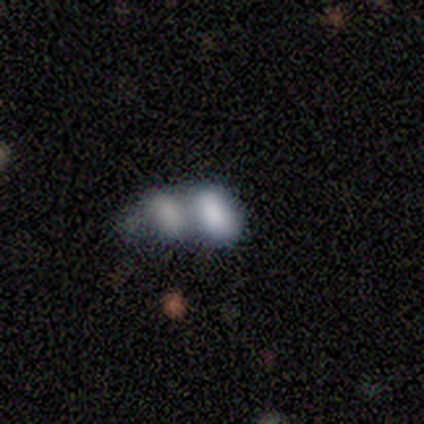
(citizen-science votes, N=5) Smooth or featured: smooth — 100%
How rounded: in between — 100%
Merging: merger — 100%